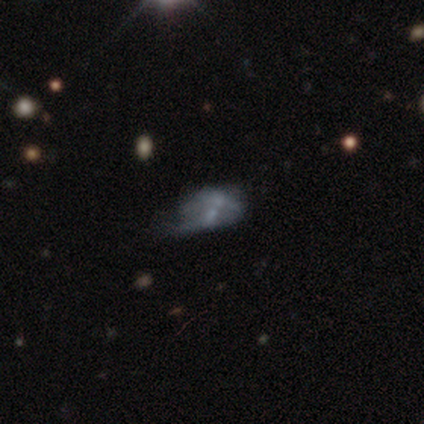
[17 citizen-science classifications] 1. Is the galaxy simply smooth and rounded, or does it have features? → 59% featured or disk, 41% smooth, 0% star or artifact.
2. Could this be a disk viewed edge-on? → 90% no, 10% yes.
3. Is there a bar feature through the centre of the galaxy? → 78% no, 22% weak, 0% strong.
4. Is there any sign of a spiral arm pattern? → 100% no, 0% yes.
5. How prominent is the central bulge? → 67% none, 22% moderate, 11% small, 0% dominant, 0% large.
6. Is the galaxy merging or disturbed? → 35% minor disturbance (tied), 35% merger (tied), 18% major disturbance, 12% none.